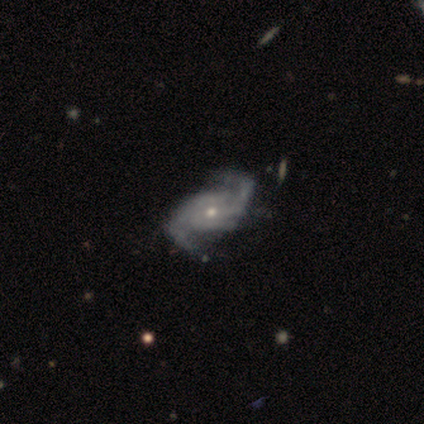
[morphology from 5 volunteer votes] Volunteers were most divided on "merging" (2-way tie): none: 40%, major disturbance: 40%, minor disturbance: 20%, merger: 0%. More confident: edge-on disk — no (100%); smooth or featured — featured or disk (80%); bar — no (75%); spiral arms — yes (75%); bulge size — small (75%); spiral winding — tight (67%); spiral arm count — 2 (67%).